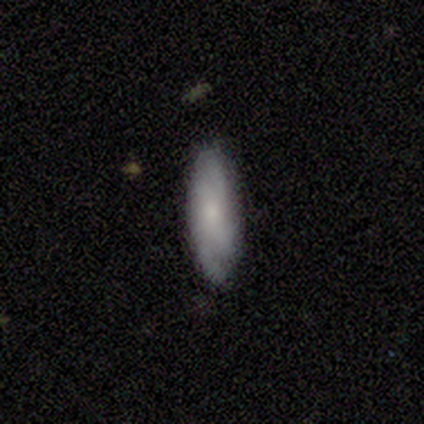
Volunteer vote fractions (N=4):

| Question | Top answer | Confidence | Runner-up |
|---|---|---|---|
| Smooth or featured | featured or disk | 75% | smooth (25%) |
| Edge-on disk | no | 100% | — |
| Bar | no | 67% | weak (33%) |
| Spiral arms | yes | 100% | — |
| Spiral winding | tight | 33% | tied: medium (33%), loose (33%) |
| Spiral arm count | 2 | 67% | can't tell (33%) |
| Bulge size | small | 67% | moderate (33%) |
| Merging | none | 100% | — |